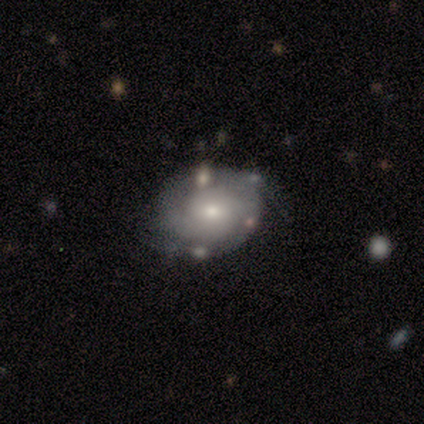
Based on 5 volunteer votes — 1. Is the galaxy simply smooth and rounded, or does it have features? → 80% featured or disk, 20% star or artifact, 0% smooth.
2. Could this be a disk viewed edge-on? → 100% no, 0% yes.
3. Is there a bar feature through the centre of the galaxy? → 75% no, 25% weak, 0% strong.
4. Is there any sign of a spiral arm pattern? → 75% yes, 25% no.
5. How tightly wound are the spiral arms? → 67% tight, 33% medium, 0% loose.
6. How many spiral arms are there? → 33% 2 (tied), 33% 3 (tied), 33% can't tell (tied), 0% 1, 0% 4, 0% more than 4.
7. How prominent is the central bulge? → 75% moderate, 25% small, 0% dominant, 0% large, 0% none.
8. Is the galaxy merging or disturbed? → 100% none, 0% minor disturbance, 0% major disturbance, 0% merger.